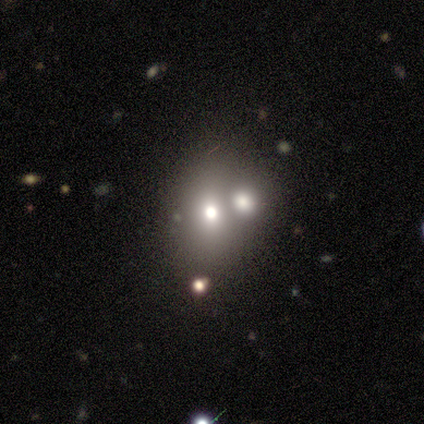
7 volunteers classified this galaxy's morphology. Smooth or featured? 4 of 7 (57%) said featured or disk. Edge-on disk? 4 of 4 (100%) said no. Bar? 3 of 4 (75%) said no. Spiral arms? 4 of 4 (100%) said no. Bulge size? 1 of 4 (25%, tied with moderate, small and none) said large. Merging? 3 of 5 (60%) said none.